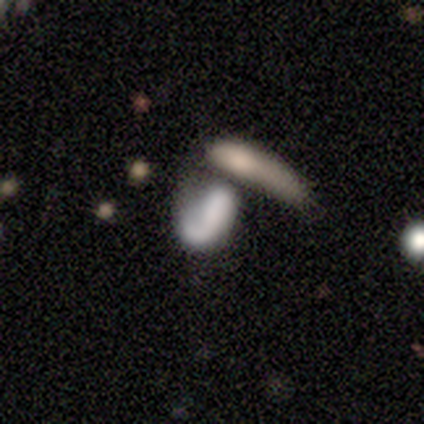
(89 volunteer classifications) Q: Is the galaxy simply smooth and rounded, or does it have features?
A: smooth — 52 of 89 (58%).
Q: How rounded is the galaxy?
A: in between — 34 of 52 (65%).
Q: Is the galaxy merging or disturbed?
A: merger — 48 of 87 (55%).